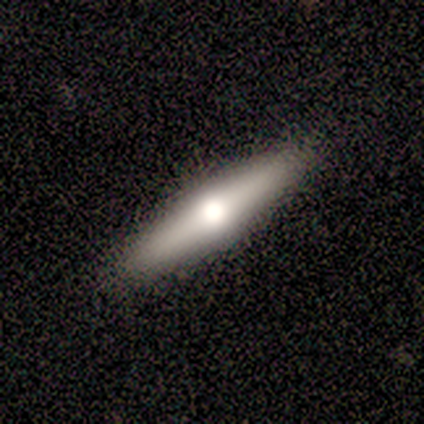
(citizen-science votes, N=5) Smooth or featured: smooth — 80% (featured or disk — 20%)
How rounded: in between — 50% (tied with cigar-shaped — 50%)
Merging: none — 100%